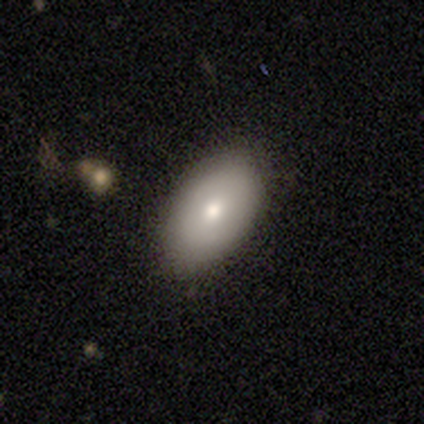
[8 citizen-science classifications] Smooth or featured: smooth — 88% (featured or disk — 12%)
How rounded: in between — 86% (round — 14%)
Merging: none — 62% (minor disturbance — 25%)